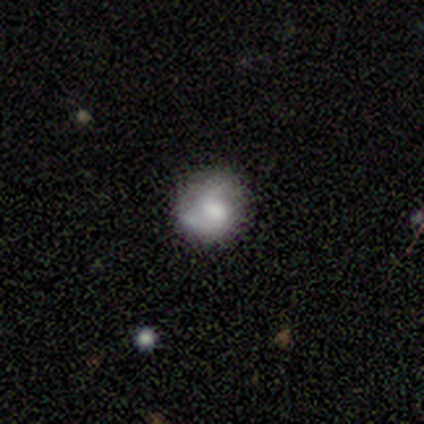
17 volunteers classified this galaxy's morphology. smooth_or_featured: featured or disk (p=0.53) [alt: smooth p=0.35]
disk_edge_on: no (p=1.00)
bar: no (p=0.78) [alt: strong p=0.11]
has_spiral_arms: yes (p=0.67) [alt: no p=0.33]
spiral_winding: medium (p=0.50) [alt: tight p=0.33]
spiral_arm_count: 2 (p=0.83) [alt: 1 p=0.17]
bulge_size: large (p=0.33) [alt: dominant p=0.22]
merging: none (p=0.60) [alt: minor disturbance p=0.27]